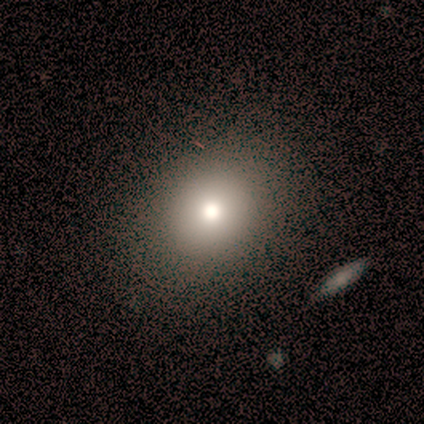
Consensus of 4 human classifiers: smooth_or_featured: smooth (p=0.75) [alt: star or artifact p=0.25]
how_rounded: in between (p=0.67) [alt: round p=0.33]
merging: none (p=1.00)